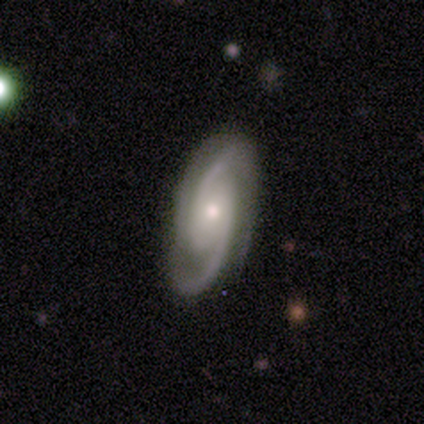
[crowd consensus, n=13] This appears to be a featured or disk galaxy (92%) with no bar (67%), 2 (58%) medium (67%) spiral arms (100%) and a small central bulge (58%). Merging: none (75%).